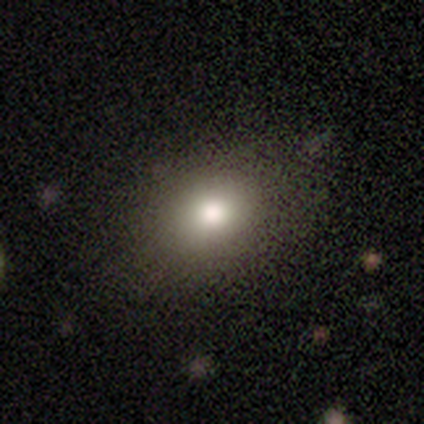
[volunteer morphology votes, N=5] type=smooth (100%); roundness=round (60%); merging=none (80%).